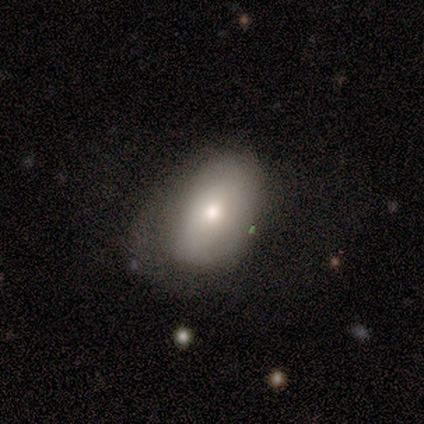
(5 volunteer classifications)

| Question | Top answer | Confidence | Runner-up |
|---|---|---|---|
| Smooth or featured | smooth | 80% | featured or disk (20%) |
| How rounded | in between | 100% | — |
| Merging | none | 40% | tied: major disturbance (40%) |